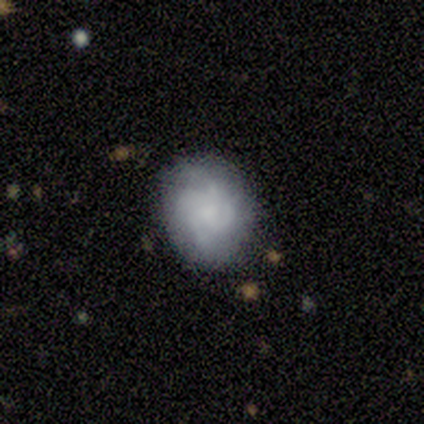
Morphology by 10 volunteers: Smooth or featured?
  - smooth: 40% * (tied)
  - featured or disk: 40% * (tied)
  - star or artifact: 20%
How rounded?
  - round: 75% *
  - in between: 25%
  - cigar-shaped: 0%
Merging?
  - none: 62% *
  - minor disturbance: 25%
  - major disturbance: 12%
  - merger: 0%